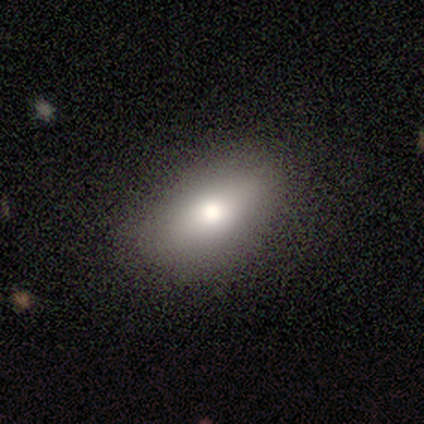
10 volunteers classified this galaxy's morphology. Overall: smooth (70%). How rounded: in between (100%). Merging: none (100%).